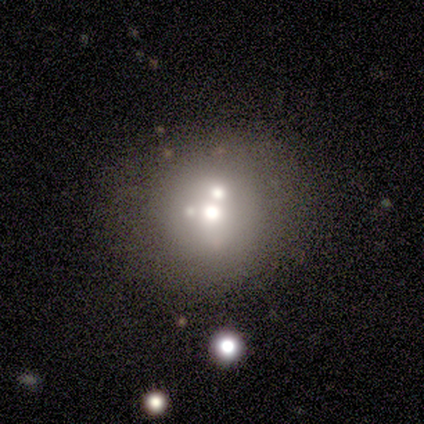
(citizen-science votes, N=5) Q: Smooth or featured?
A: smooth (60%); runner-up: star or artifact (40%)
Q: How rounded?
A: round (100%)
Q: Merging?
A: merger (67%); runner-up: minor disturbance (33%)